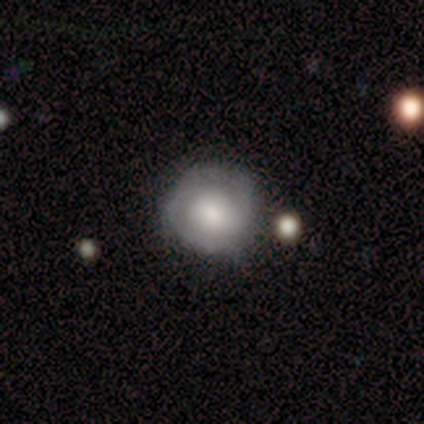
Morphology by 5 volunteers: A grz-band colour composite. It shows a featured or disk galaxy (60%) with no bar (100%), loose (100%) spiral arms (50%, tied with no) and a large central bulge (100%). Merging: none (40%, tied with minor disturbance).